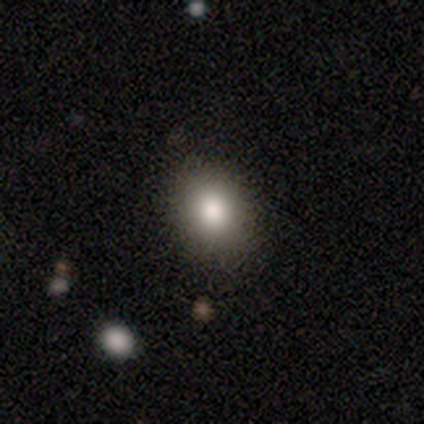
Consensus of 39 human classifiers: Smooth or featured? 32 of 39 (82%) said smooth. How rounded? 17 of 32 (53%) said in between. Merging? 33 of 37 (89%) said none.